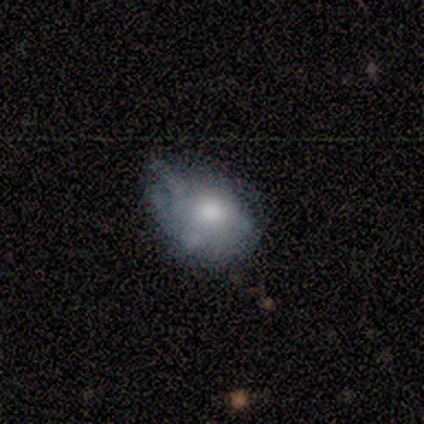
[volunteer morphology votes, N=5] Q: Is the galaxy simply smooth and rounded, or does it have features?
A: smooth — 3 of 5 (60%).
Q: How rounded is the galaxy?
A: in between — 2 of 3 (67%).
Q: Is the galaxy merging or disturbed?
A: minor disturbance — 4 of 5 (80%).